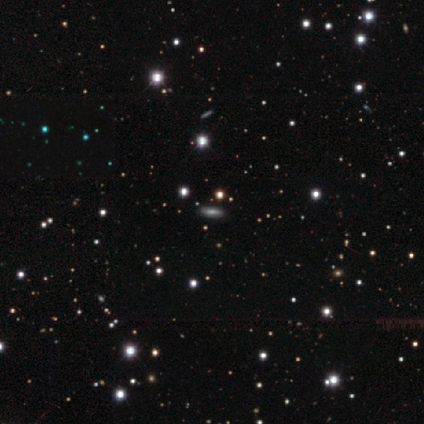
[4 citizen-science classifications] Q: Smooth or featured?
A: smooth (75%); runner-up: star or artifact (25%)
Q: How rounded?
A: in between (100%)
Q: Merging?
A: none (100%)